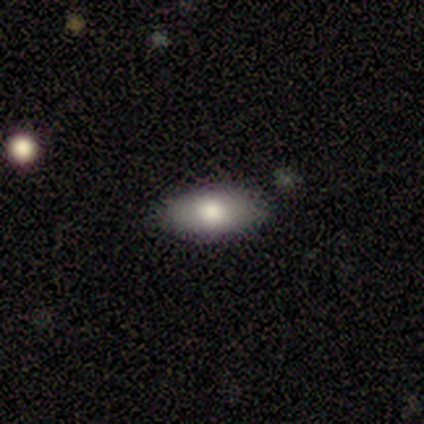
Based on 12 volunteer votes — Smooth or featured?
  - smooth: 83% *
  - featured or disk: 8%
  - star or artifact: 8%
How rounded?
  - in between: 90% *
  - cigar-shaped: 10%
  - round: 0%
Merging?
  - none: 64% *
  - merger: 18%
  - minor disturbance: 9%
  - major disturbance: 9%